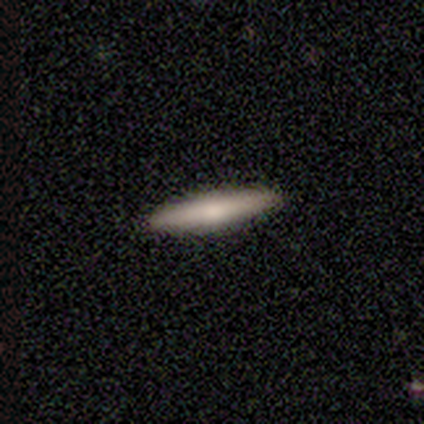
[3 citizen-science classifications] This is clearly a featured or disk galaxy (100%). It is clearly viewed edge-on (100%). Edge-on bulge: likely rounded (67%). Merging: clearly none (100%).